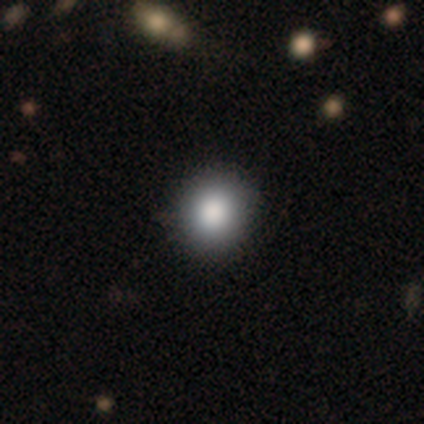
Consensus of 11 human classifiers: Smooth or featured? 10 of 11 (91%) said smooth. How rounded? 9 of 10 (90%) said round. Merging? 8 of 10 (80%) said none.